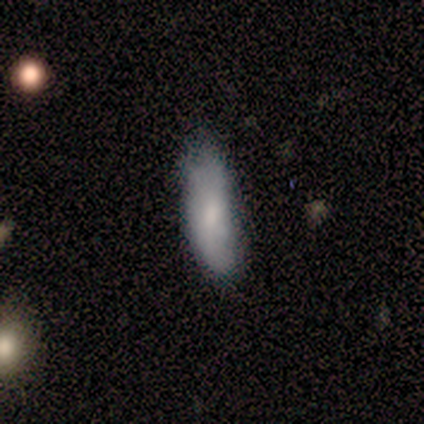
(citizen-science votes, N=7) Smooth or featured? 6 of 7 (86%) said smooth. How rounded? 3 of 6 (50%, tied with cigar-shaped) said in between. Merging? 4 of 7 (57%) said minor disturbance.